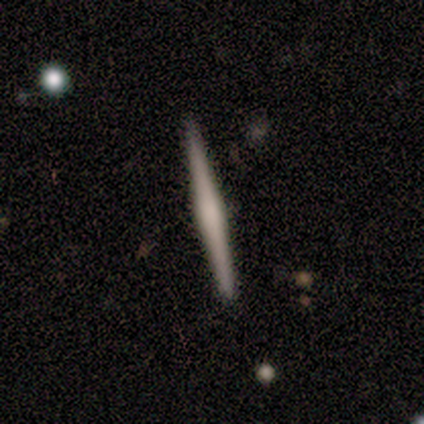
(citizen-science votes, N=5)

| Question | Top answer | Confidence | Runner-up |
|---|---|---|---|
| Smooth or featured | featured or disk | 100% | — |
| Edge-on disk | yes | 100% | — |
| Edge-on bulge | rounded | 60% | boxy (20%) |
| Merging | none | 80% | minor disturbance (20%) |